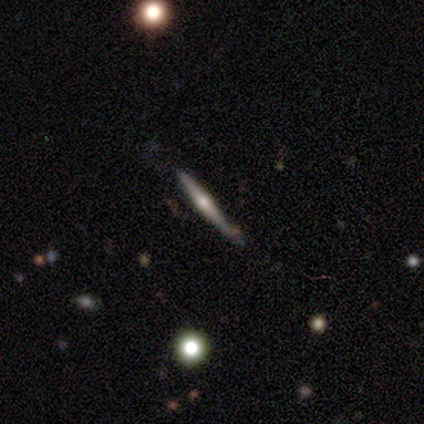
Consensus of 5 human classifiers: Q: Smooth or featured?
A: featured or disk (60%); runner-up: smooth (20%)
Q: Edge-on disk?
A: yes (100%)
Q: Edge-on bulge?
A: rounded (100%)
Q: Merging?
A: none (50%); runner-up: minor disturbance (25%)